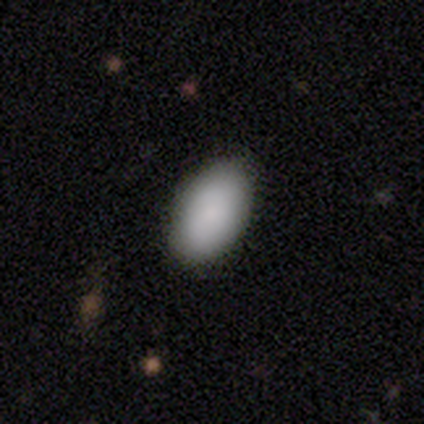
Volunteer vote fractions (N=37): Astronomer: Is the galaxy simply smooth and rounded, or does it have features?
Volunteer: smooth — 86%.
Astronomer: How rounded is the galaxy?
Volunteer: in between — 94%.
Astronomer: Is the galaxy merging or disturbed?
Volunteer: none — 66%.